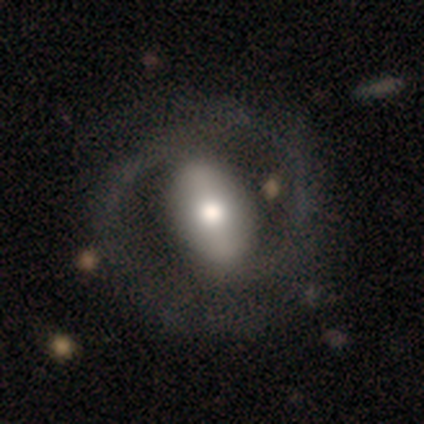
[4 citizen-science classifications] Q: Smooth or featured?
A: featured or disk (100%)
Q: Edge-on disk?
A: no (100%)
Q: Bar?
A: weak (50%); runner-up: strong (25%)
Q: Spiral arms?
A: yes (75%); runner-up: no (25%)
Q: Spiral winding?
A: tight (100%)
Q: Spiral arm count?
A: 2 (100%)
Q: Bulge size?
A: moderate (75%); runner-up: small (25%)
Q: Merging?
A: none (100%)